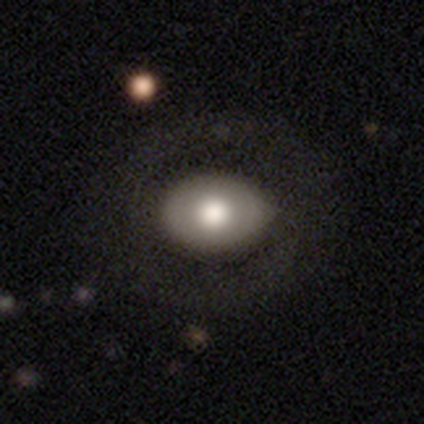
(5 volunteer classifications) Volunteers were most divided on "merging": none: 60%, minor disturbance: 40%, major disturbance: 0%, merger: 0%. More confident: smooth or featured — smooth (100%); how rounded — in between (80%).